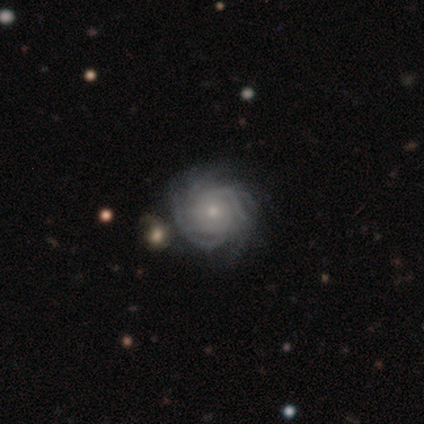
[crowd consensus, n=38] Overall: featured or disk (89%). Edge-on disk: no (97%). Bar: no (76%). Spiral arms: yes (100%). Spiral arm count: 3 (33%; 4 21%). Spiral winding: tight (82%). Bulge size: small (70%; moderate 30%). Merging: none (75%).